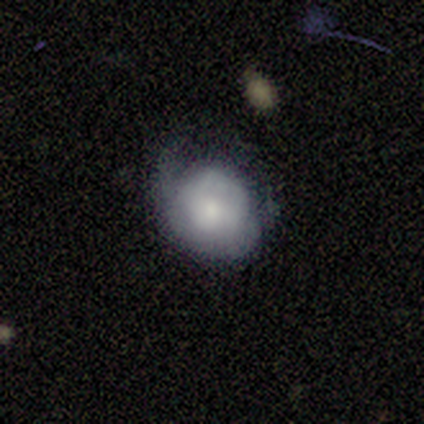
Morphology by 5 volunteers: Smooth or featured?
  - smooth: 40% * (tied)
  - featured or disk: 40% * (tied)
  - star or artifact: 20%
How rounded?
  - round: 100% *
  - in between: 0%
  - cigar-shaped: 0%
Merging?
  - minor disturbance: 75% *
  - none: 25%
  - major disturbance: 0%
  - merger: 0%